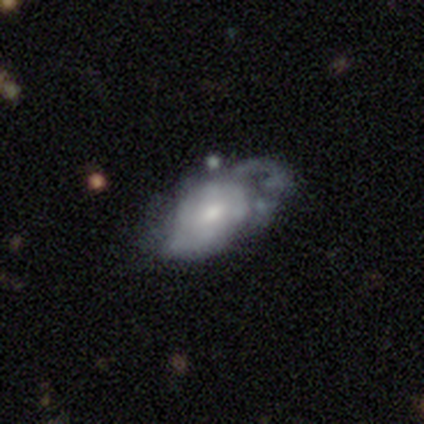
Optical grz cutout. It shows a featured or disk galaxy (74%) with no bar (59%), 2 (40%) medium (40%) spiral arms (56%) and a moderate central bulge (48%). Merging: major disturbance (49%).